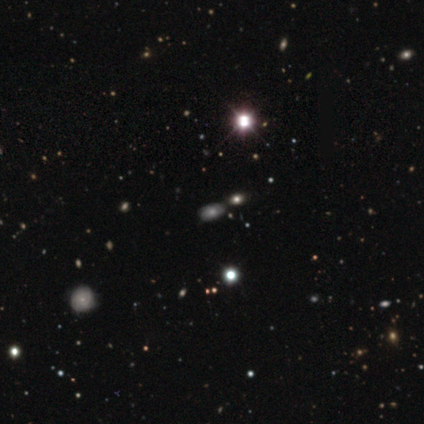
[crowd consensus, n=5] This appears to be a smooth galaxy with no disk features (80%) that is in between round and cigar-shaped (75%). Merging: none (50%).